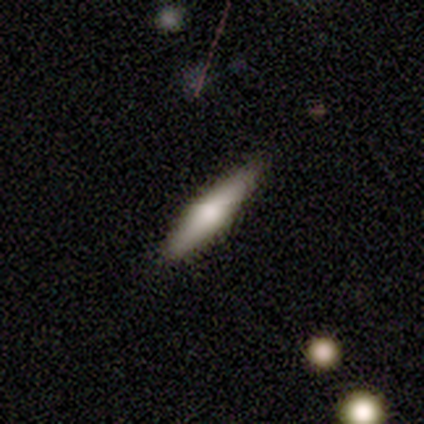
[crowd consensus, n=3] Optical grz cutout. It shows a smooth galaxy with no disk features (33%, tied with featured or disk and star or artifact) that is in between round and cigar-shaped (100%). Merging: none (100%).